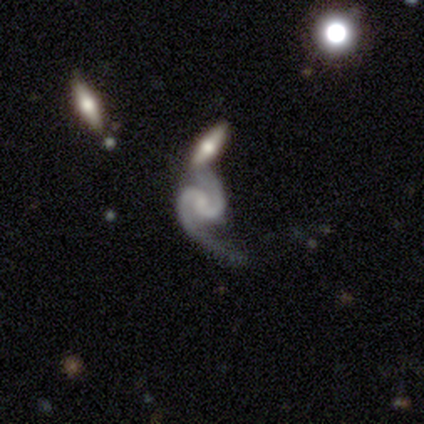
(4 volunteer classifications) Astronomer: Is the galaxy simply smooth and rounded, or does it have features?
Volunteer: featured or disk — 100%.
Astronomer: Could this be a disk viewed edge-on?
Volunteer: no — 100%.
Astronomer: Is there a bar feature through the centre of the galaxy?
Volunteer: weak — 50%.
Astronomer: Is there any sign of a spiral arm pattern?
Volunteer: yes — 100%.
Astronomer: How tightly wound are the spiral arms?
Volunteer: tight — 75%.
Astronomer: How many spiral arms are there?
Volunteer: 2 — 100%.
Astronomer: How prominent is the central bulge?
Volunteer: small — 75%.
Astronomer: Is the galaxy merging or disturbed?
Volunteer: merger — 50%.